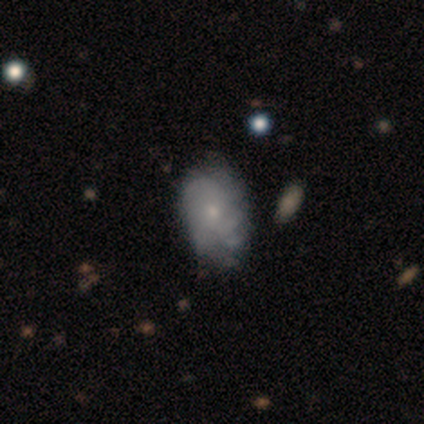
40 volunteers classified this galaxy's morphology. Q: Smooth or featured?
A: featured or disk (62%); runner-up: smooth (30%)
Q: Edge-on disk?
A: no (96%); runner-up: yes (4%)
Q: Bar?
A: no (83%); runner-up: weak (17%)
Q: Spiral arms?
A: yes (75%); runner-up: no (25%)
Q: Spiral winding?
A: tight (72%); runner-up: medium (17%)
Q: Spiral arm count?
A: can't tell (61%); runner-up: 3 (22%)
Q: Bulge size?
A: small (71%); runner-up: moderate (25%)
Q: Merging?
A: none (59%); runner-up: minor disturbance (19%)